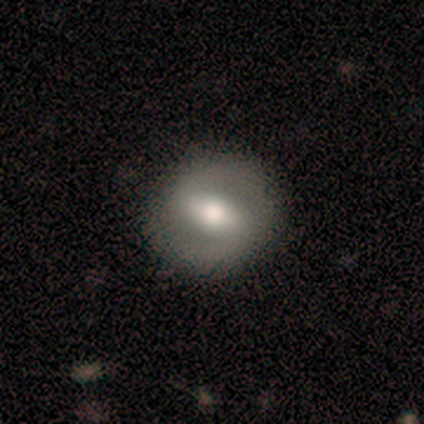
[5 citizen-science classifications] featured or disk 60%, smooth 20%, star or artifact 20%. Down the decision tree: edge-on disk — no (100%); bar — strong (67%); spiral arms — yes (67%); spiral arm count — 2 (100%); spiral winding — medium (50%, tied with loose); bulge size — large (67%); merging — none (100%).